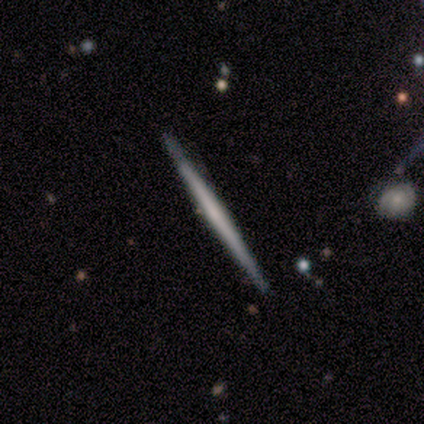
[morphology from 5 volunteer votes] smooth-or-featured: featured or disk: 60% | smooth: 40% | star or artifact: 0%
  disk-edge-on: yes: 100% | no: 0%
    edge-on-bulge: none: 100% | boxy: 0% | rounded: 0%
  merging: none: 100% | minor disturbance: 0% | major disturbance: 0% | merger: 0%